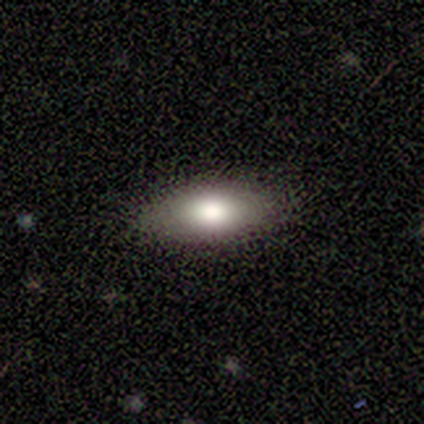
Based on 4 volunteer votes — Smooth or featured?
  - smooth: 75% *
  - featured or disk: 25%
  - star or artifact: 0%
How rounded?
  - in between: 100% *
  - round: 0%
  - cigar-shaped: 0%
Merging?
  - none: 100% *
  - minor disturbance: 0%
  - major disturbance: 0%
  - merger: 0%